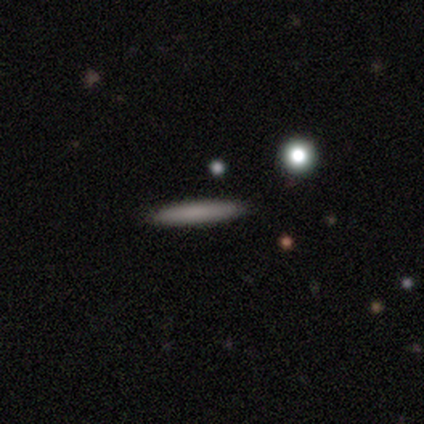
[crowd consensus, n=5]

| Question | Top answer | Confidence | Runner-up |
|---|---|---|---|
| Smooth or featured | smooth | 80% | featured or disk (20%) |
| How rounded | cigar-shaped | 100% | — |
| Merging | none | 100% | — |